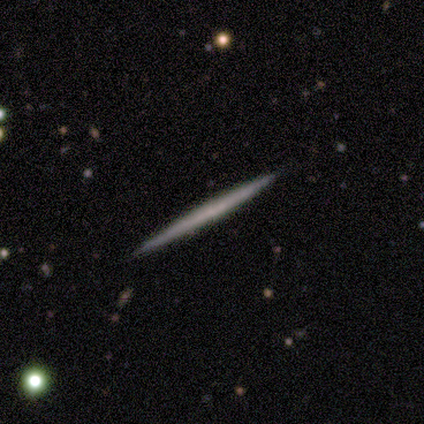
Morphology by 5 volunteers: Smooth or featured? smooth (60%)
How rounded? cigar-shaped (100%)
Merging? none (80%)